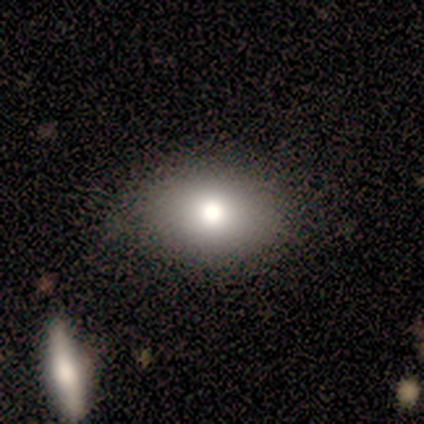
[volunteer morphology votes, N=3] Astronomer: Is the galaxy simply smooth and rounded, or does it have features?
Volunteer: smooth — 67%.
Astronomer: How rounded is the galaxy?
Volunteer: in between — 100%.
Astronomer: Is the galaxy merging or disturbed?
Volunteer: none — 100%.